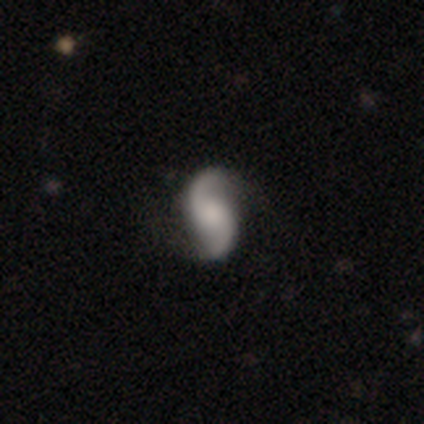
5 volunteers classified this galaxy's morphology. smooth_or_featured: featured or disk (p=1.00)
disk_edge_on: no (p=1.00)
bar: no (p=1.00)
has_spiral_arms: yes (p=1.00)
spiral_winding: loose (p=0.80) [alt: medium p=0.20]
spiral_arm_count: 2 (p=0.80) [alt: can't tell p=0.20]
bulge_size: moderate (p=0.60) [alt: large p=0.20]
merging: none (p=1.00)